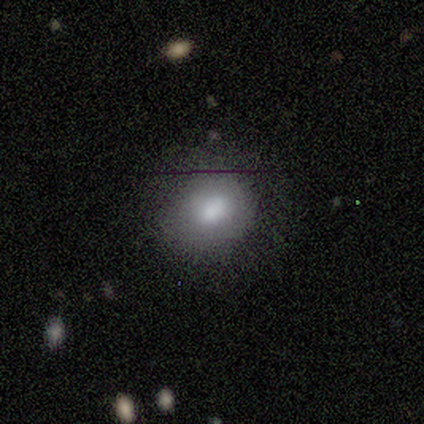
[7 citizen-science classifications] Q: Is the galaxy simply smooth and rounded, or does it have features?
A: smooth — 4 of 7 (57%).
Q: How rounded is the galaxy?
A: round — 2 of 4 (50%, tied with in between).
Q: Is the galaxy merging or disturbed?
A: none — 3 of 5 (60%).